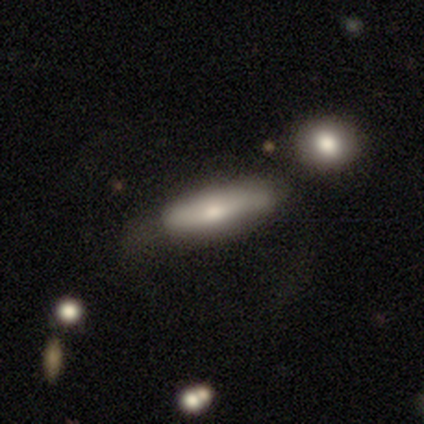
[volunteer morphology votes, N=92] A smooth galaxy with no disk features (61%) that is cigar-shaped (66%).

Vote fractions:
- Smooth or featured? smooth: 61% / featured or disk: 34% / star or artifact: 5%
- How rounded? cigar-shaped: 66% / in between: 34% / round: 0%
- Merging? none: 45% / minor disturbance: 24% / major disturbance: 21% / merger: 10%